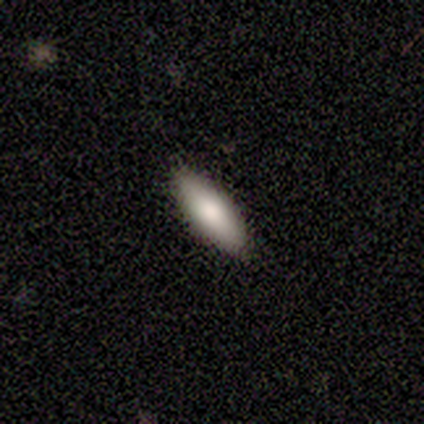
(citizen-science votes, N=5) This appears to be a smooth galaxy with no disk features (80%) that is in between round and cigar-shaped (100%). Merging: none (80%).